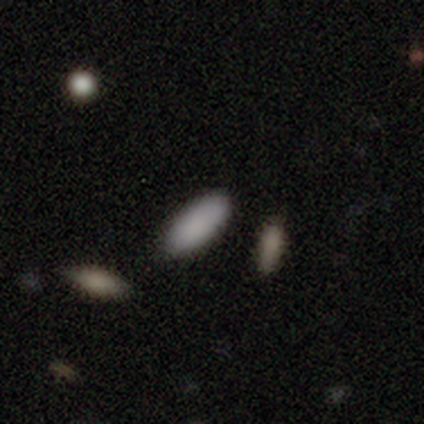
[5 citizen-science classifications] Q: Smooth or featured?
A: smooth (80%); runner-up: featured or disk (20%)
Q: How rounded?
A: in between (75%); runner-up: cigar-shaped (25%)
Q: Merging?
A: none (80%); runner-up: merger (20%)